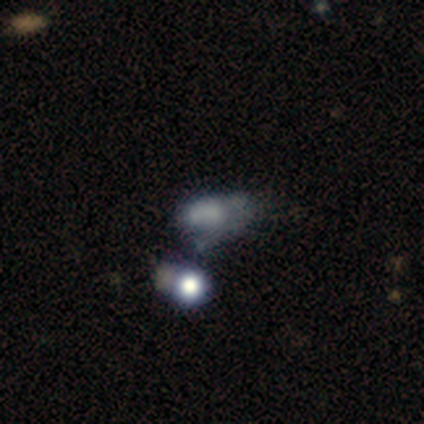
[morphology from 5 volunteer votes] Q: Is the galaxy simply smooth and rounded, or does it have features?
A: smooth — 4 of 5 (80%).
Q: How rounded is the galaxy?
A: in between — 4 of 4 (100%).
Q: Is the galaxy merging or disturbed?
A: minor disturbance — 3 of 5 (60%).